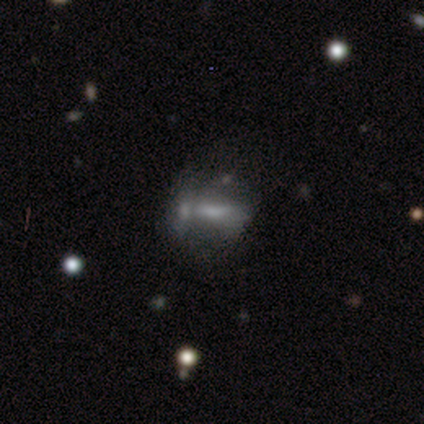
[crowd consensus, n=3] A featured or disk galaxy (100%) with no bar (100%), no spiral arms (100%) and a moderate central bulge (50%, tied with none).

Vote fractions:
- Smooth or featured? featured or disk: 100% / smooth: 0% / star or artifact: 0%
- Edge-on disk? no: 67% / yes: 33%
- Bar? no: 100% / strong: 0% / weak: 0%
- Spiral arms? no: 100% / yes: 0%
- Bulge size? moderate: 50% (tied) / none: 50% (tied) / dominant: 0% / large: 0% / small: 0%
- Merging? none: 100% / minor disturbance: 0% / major disturbance: 0% / merger: 0%